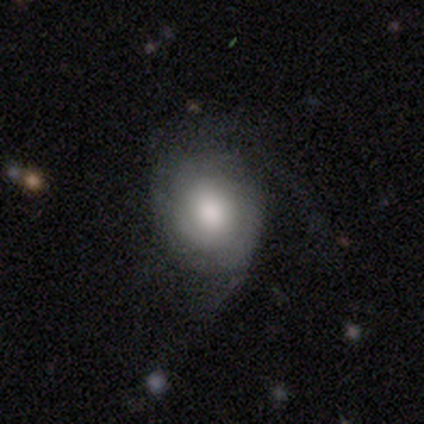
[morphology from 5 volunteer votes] This is clearly a smooth galaxy (100%). How rounded: clearly round (80%). Merging: marginally none (40%, tied with major disturbance).